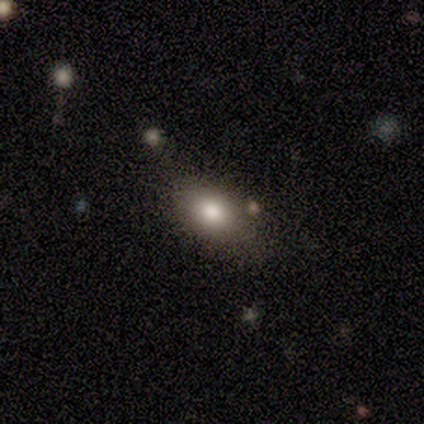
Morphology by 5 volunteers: A smooth galaxy with no disk features (80%) that is in between round and cigar-shaped (100%).

Vote fractions:
- Smooth or featured? smooth: 80% / featured or disk: 20% / star or artifact: 0%
- How rounded? in between: 100% / round: 0% / cigar-shaped: 0%
- Merging? none: 80% / major disturbance: 20% / minor disturbance: 0% / merger: 0%